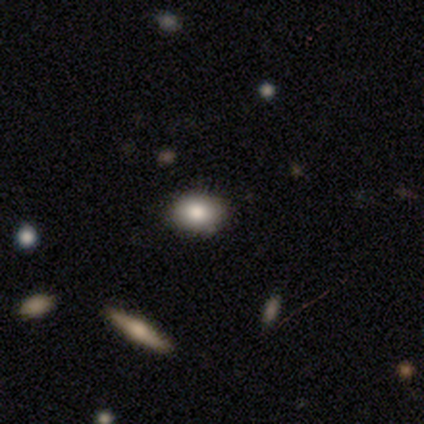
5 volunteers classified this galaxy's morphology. Smooth or featured?
  - smooth: 80% *
  - featured or disk: 20%
  - star or artifact: 0%
How rounded?
  - in between: 50% *
  - round: 25%
  - cigar-shaped: 25%
Merging?
  - none: 100% *
  - minor disturbance: 0%
  - major disturbance: 0%
  - merger: 0%